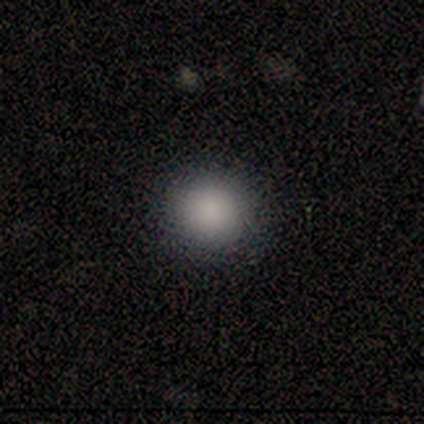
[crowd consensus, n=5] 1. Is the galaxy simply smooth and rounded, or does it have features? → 100% smooth, 0% featured or disk, 0% star or artifact.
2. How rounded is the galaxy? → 100% round, 0% in between, 0% cigar-shaped.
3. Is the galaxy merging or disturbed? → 100% none, 0% minor disturbance, 0% major disturbance, 0% merger.